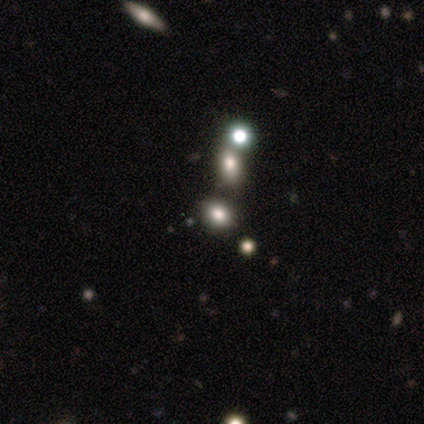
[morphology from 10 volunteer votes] This is possibly a smooth galaxy (50%). How rounded: clearly in between (80%). Merging: possibly merger (50%).